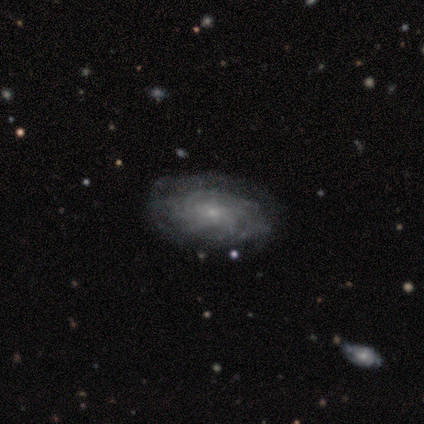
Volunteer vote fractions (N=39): smooth-or-featured: featured or disk: 82% | smooth: 18% | star or artifact: 0%
  disk-edge-on: no: 97% | yes: 3%
    bar: no: 77% | weak: 23% | strong: 0%
    has-spiral-arms: yes: 81% | no: 19%
      spiral-winding: tight: 68% | medium: 20% | loose: 12%
      spiral-arm-count: can't tell: 68% | more than 4: 16% | 2: 8% | 4: 8% | 1: 0% | 3: 0%
    bulge-size: small: 84% | moderate: 16% | dominant: 0% | large: 0% | none: 0%
  merging: none: 79% | minor disturbance: 13% | major disturbance: 5% | merger: 3%